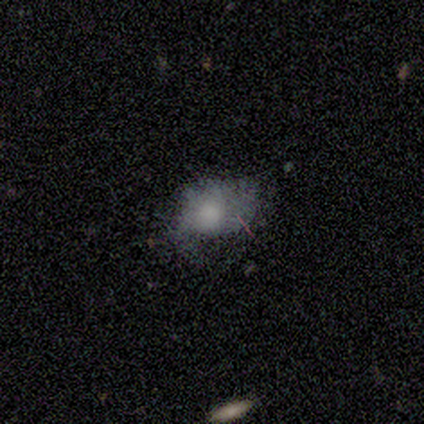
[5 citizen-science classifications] Smooth or featured? 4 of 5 (80%) said smooth. How rounded? 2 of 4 (50%, tied with in between) said round. Merging? 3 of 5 (60%) said minor disturbance.